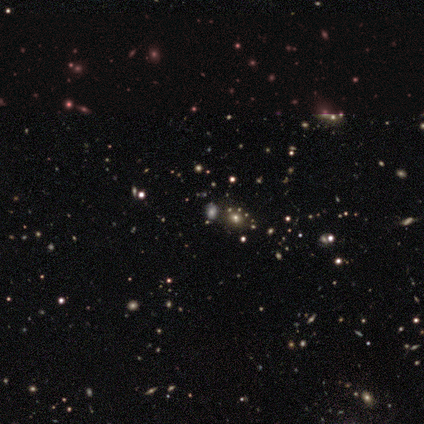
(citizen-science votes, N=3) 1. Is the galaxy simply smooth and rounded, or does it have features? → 100% star or artifact, 0% smooth, 0% featured or disk.